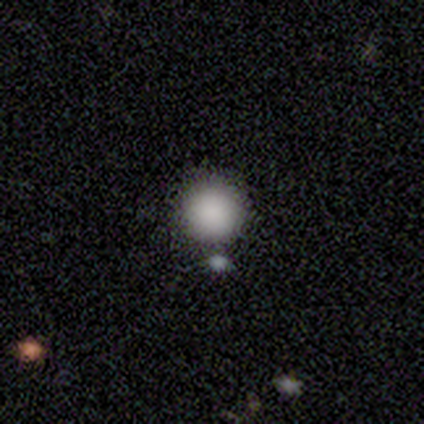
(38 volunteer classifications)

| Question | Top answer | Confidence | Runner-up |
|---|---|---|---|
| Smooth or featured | smooth | 82% | star or artifact (13%) |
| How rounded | round | 100% | — |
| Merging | none | 82% | merger (9%) |